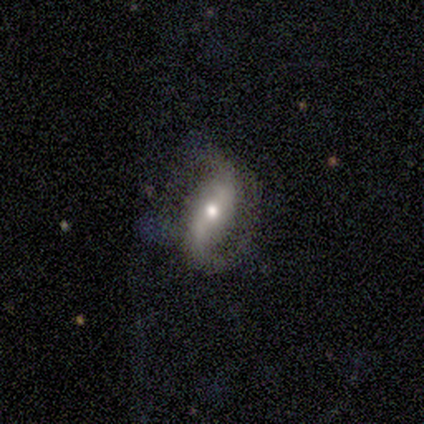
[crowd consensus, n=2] smooth_or_featured: featured or disk (p=1.00)
disk_edge_on: no (p=1.00)
bar: weak (p=0.50) [tied with: no p=0.50]
has_spiral_arms: yes (p=1.00)
spiral_winding: loose (p=1.00)
spiral_arm_count: 2 (p=1.00)
bulge_size: moderate (p=0.50) [tied with: small p=0.50]
merging: none (p=0.50) [tied with: major disturbance p=0.50]